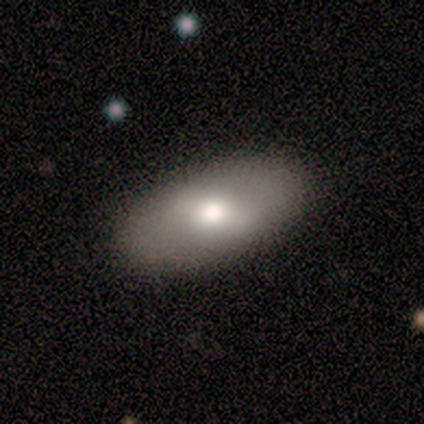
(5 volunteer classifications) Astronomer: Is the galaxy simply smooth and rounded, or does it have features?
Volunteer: smooth — 100%.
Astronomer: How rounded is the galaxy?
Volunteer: in between — 100%.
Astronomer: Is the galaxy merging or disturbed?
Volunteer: none — 100%.